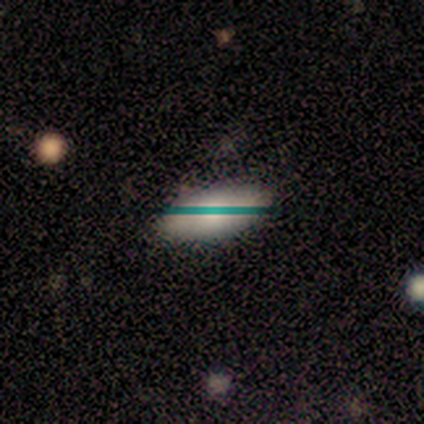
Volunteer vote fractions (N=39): smooth-or-featured: smooth: 67% | featured or disk: 18% | star or artifact: 15%
  how-rounded: in between: 85% | cigar-shaped: 12% | round: 4%
  merging: none: 85% | minor disturbance: 9% | major disturbance: 6% | merger: 0%